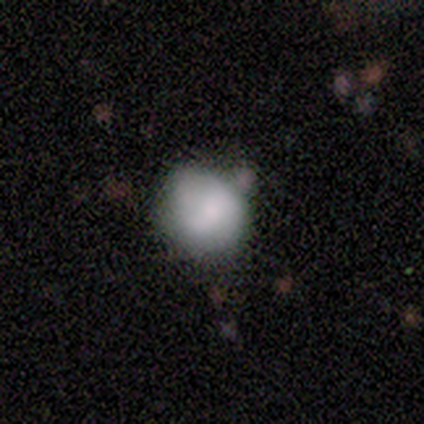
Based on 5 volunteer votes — A smooth galaxy with no disk features (60%) that is round (67%).

Vote fractions:
- Smooth or featured? smooth: 60% / featured or disk: 40% / star or artifact: 0%
- How rounded? round: 67% / in between: 33% / cigar-shaped: 0%
- Merging? none: 40% (tied) / minor disturbance: 40% (tied) / merger: 20% / major disturbance: 0%